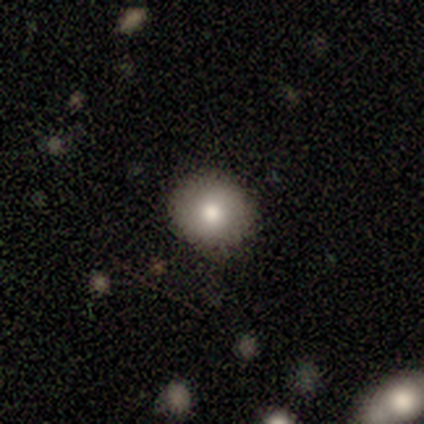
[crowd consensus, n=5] This is clearly a smooth galaxy (100%). How rounded: clearly round (100%). Merging: likely minor disturbance (60%).